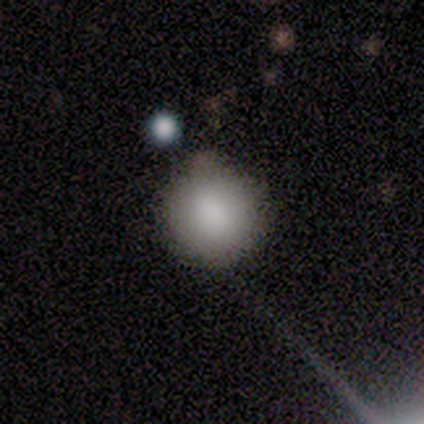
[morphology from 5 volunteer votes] Volunteers were most divided on "merging": none: 60%, minor disturbance: 40%, major disturbance: 0%, merger: 0%. More confident: smooth or featured — smooth (100%); how rounded — round (100%).